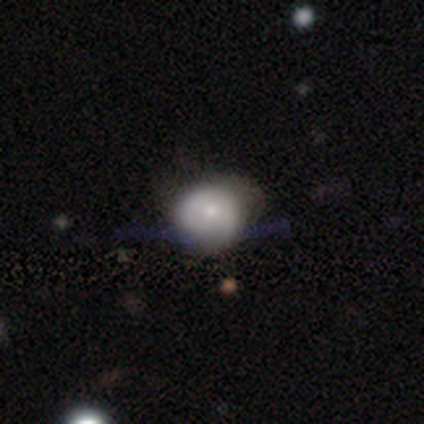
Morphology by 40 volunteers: smooth_or_featured: smooth (p=0.55) [alt: featured or disk p=0.35]
how_rounded: round (p=0.86) [alt: in between p=0.14]
merging: minor disturbance (p=0.33) [alt: none p=0.25]